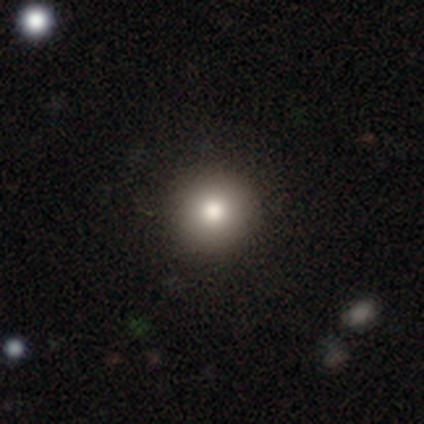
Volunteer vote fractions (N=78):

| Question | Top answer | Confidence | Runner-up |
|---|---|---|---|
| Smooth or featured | smooth | 83% | star or artifact (12%) |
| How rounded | round | 98% | in between (2%) |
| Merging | none | 51% | minor disturbance (4%) |